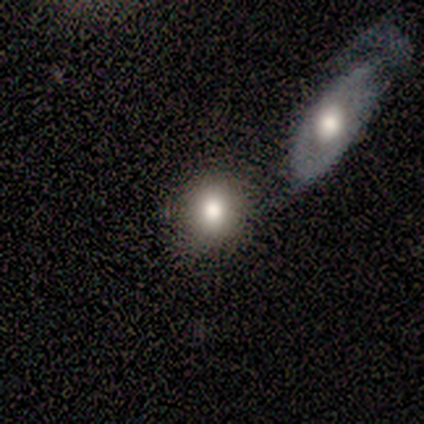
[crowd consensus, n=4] Morphology: type=smooth (50%); roundness=round (100%); merging=none (67%).